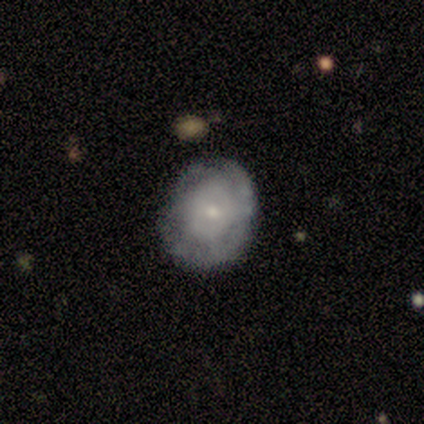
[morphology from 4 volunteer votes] Q: Smooth or featured?
A: featured or disk (75%); runner-up: smooth (25%)
Q: Edge-on disk?
A: no (100%)
Q: Bar?
A: no (100%)
Q: Spiral arms?
A: no (100%)
Q: Bulge size?
A: small (67%); runner-up: moderate (33%)
Q: Merging?
A: none (50%); runner-up: major disturbance (25%)